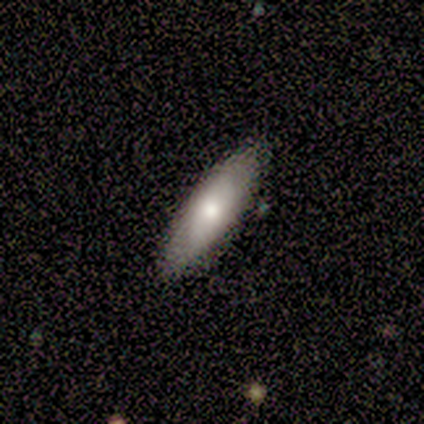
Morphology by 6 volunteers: smooth-or-featured: smooth: 67% | featured or disk: 17% | star or artifact: 17%
  how-rounded: in between: 100% | round: 0% | cigar-shaped: 0%
  merging: none: 100% | minor disturbance: 0% | major disturbance: 0% | merger: 0%